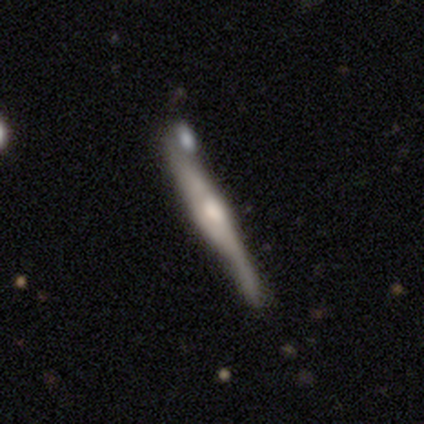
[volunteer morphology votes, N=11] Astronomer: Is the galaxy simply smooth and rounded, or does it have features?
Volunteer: featured or disk — 64%.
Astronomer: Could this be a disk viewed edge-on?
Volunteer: yes — 100%.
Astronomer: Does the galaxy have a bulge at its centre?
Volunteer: rounded — 86%.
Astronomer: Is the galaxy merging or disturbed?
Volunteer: none — 60%.